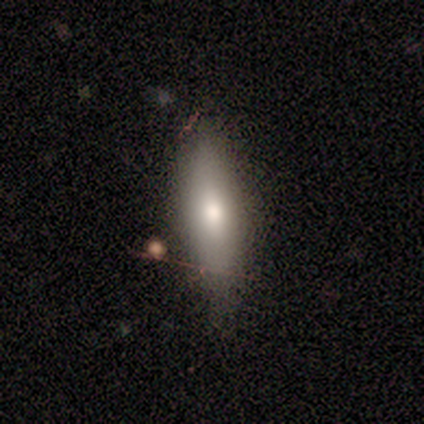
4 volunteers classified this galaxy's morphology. Smooth or featured: smooth — 75% (featured or disk — 25%)
How rounded: cigar-shaped — 67% (in between — 33%)
Merging: none — 75% (merger — 25%)